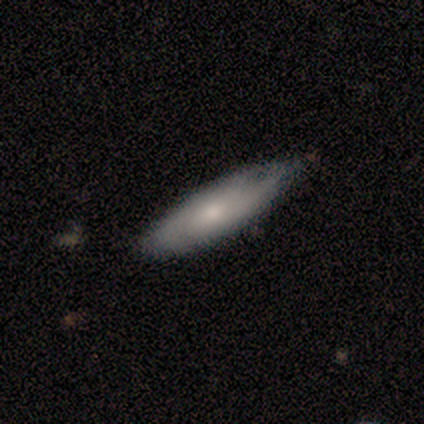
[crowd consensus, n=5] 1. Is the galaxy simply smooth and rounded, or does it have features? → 80% smooth, 20% featured or disk, 0% star or artifact.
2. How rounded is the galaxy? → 100% cigar-shaped, 0% round, 0% in between.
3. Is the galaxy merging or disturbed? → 60% none, 40% minor disturbance, 0% major disturbance, 0% merger.